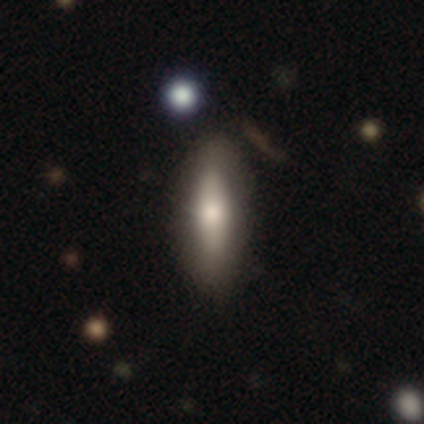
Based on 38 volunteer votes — Smooth or featured: smooth — 58% (featured or disk — 34%)
How rounded: cigar-shaped — 64% (in between — 36%)
Merging: none — 86% (minor disturbance — 6%)